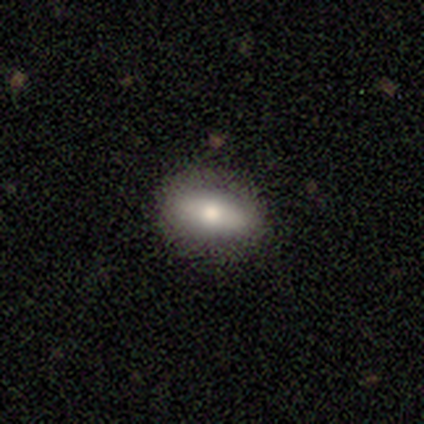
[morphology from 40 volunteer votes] A smooth galaxy with no disk features (70%) that is in between round and cigar-shaped (93%).

Vote fractions:
- Smooth or featured? smooth: 70% / featured or disk: 28% / star or artifact: 2%
- How rounded? in between: 93% / round: 4% / cigar-shaped: 4%
- Merging? none: 85% / minor disturbance: 10% / major disturbance: 5% / merger: 0%